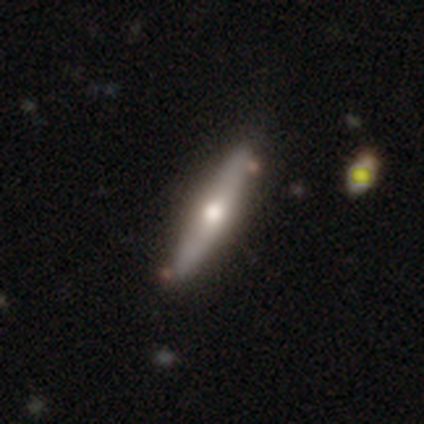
A smooth galaxy with no disk features (60%) that is cigar-shaped (67%).

Vote fractions:
- Smooth or featured? smooth: 60% / featured or disk: 40% / star or artifact: 0%
- How rounded? cigar-shaped: 67% / in between: 33% / round: 0%
- Merging? none: 80% / major disturbance: 20% / minor disturbance: 0% / merger: 0%